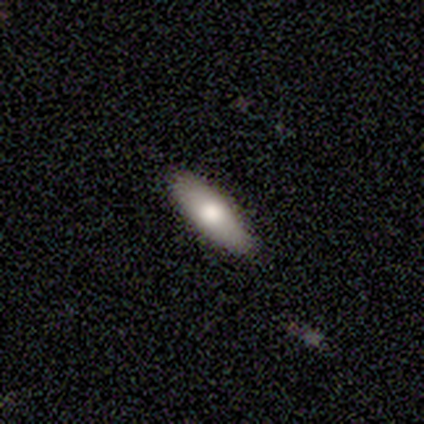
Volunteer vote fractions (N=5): A smooth galaxy with no disk features (100%) that is in between round and cigar-shaped (80%).

Vote fractions:
- Smooth or featured? smooth: 100% / featured or disk: 0% / star or artifact: 0%
- How rounded? in between: 80% / cigar-shaped: 20% / round: 0%
- Merging? none: 100% / minor disturbance: 0% / major disturbance: 0% / merger: 0%